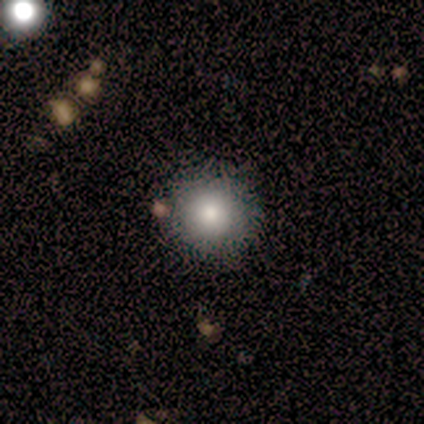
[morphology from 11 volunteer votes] Smooth or featured?
  - smooth: 82% *
  - featured or disk: 9%
  - star or artifact: 9%
How rounded?
  - round: 100% *
  - in between: 0%
  - cigar-shaped: 0%
Merging?
  - none: 100% *
  - minor disturbance: 0%
  - major disturbance: 0%
  - merger: 0%